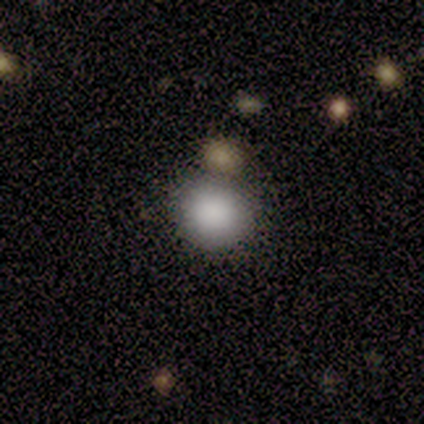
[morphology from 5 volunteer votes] Smooth or featured? smooth (100%)
How rounded? round (100%)
Merging? none (100%)